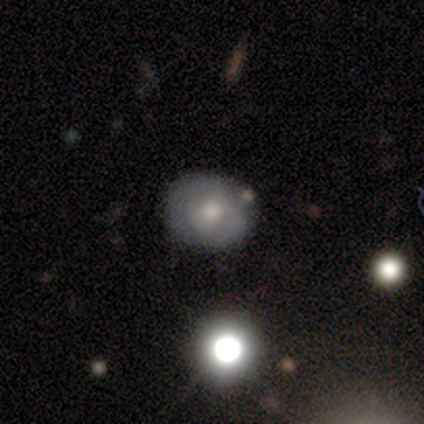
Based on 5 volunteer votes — smooth_or_featured: smooth (p=0.60) [alt: featured or disk p=0.40]
how_rounded: round (p=1.00)
merging: none (p=0.80) [alt: merger p=0.20]